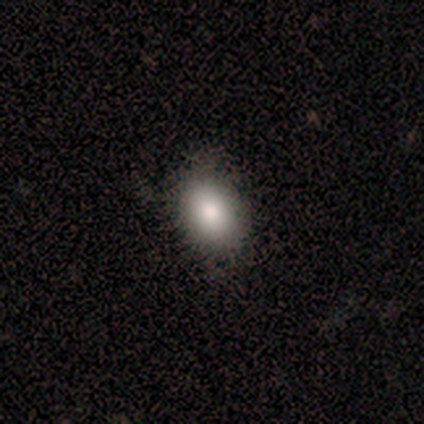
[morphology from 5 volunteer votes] A smooth galaxy with no disk features (80%) that is in between round and cigar-shaped (75%). Merging: none (100%).